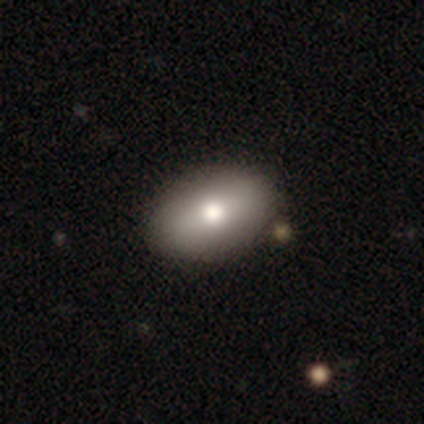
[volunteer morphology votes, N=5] Smooth or featured? 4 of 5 (80%) said smooth. How rounded? 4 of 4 (100%) said in between. Merging? 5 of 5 (100%) said none.